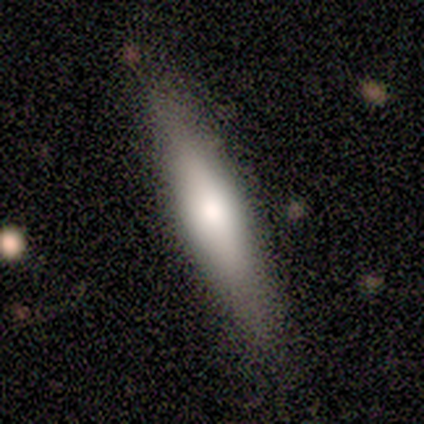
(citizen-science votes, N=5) Morphology: type=smooth (100%); roundness=cigar-shaped (100%); merging=none (100%).